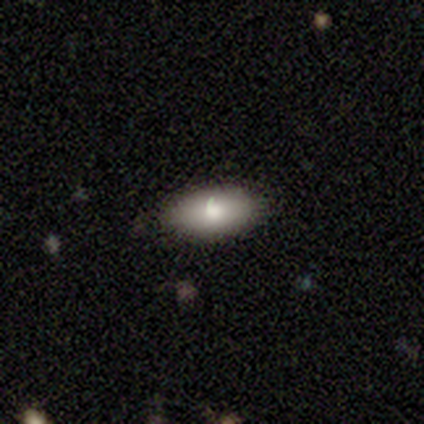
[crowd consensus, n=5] Q: Smooth or featured?
A: smooth (80%); runner-up: featured or disk (20%)
Q: How rounded?
A: in between (100%)
Q: Merging?
A: none (80%); runner-up: minor disturbance (20%)